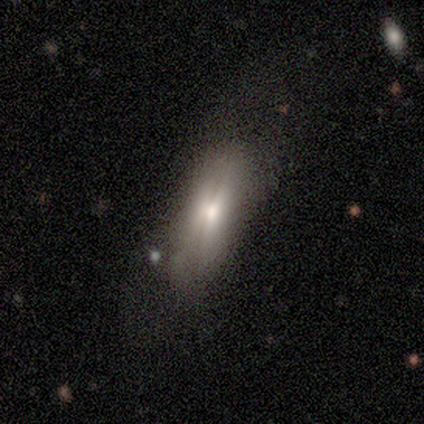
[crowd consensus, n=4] Volunteers were most divided on "edge-on disk" (2-way tie): yes: 50%, no: 50%. More confident: edge-on bulge — rounded (100%); merging — minor disturbance (67%); smooth or featured — featured or disk (50%).